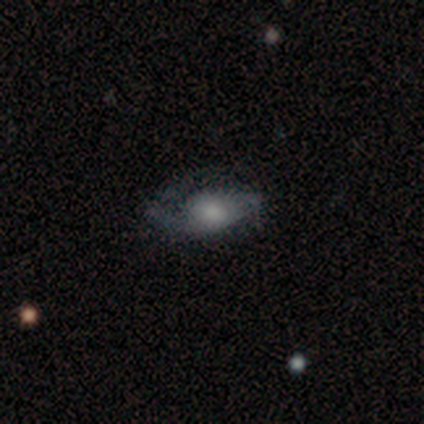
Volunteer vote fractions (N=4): A featured or disk galaxy (75%) with no bar (67%), 2 (100%) loose (67%) spiral arms (100%) and a large central bulge (33%, tied with moderate and small).

Vote fractions:
- Smooth or featured? featured or disk: 75% / smooth: 25% / star or artifact: 0%
- Edge-on disk? no: 100% / yes: 0%
- Bar? no: 67% / weak: 33% / strong: 0%
- Spiral arms? yes: 100% / no: 0%
- Spiral winding? loose: 67% / tight: 33% / medium: 0%
- Spiral arm count? 2: 100% / 1: 0% / 3: 0% / 4: 0% / more than 4: 0% / can't tell: 0%
- Bulge size? large: 33% (tied) / moderate: 33% (tied) / small: 33% (tied) / dominant: 0% / none: 0%
- Merging? minor disturbance: 50% / none: 25% / major disturbance: 25% / merger: 0%